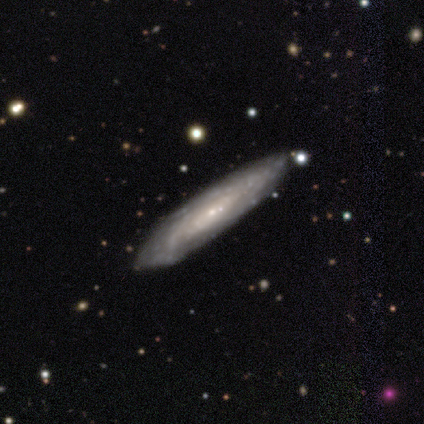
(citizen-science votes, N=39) Smooth or featured? featured or disk (82%)
Edge-on disk? no (72%)
Bar? no (100%)
Spiral arms? yes (78%)
Spiral winding? tight (72%)
Spiral arm count? can't tell (83%)
Bulge size? small (87%)
Merging? none (49%)